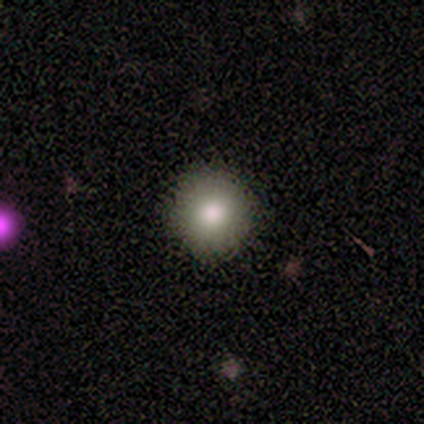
Smooth or featured?
  - smooth: 50% *
  - featured or disk: 25%
  - star or artifact: 25%
How rounded?
  - round: 100% *
  - in between: 0%
  - cigar-shaped: 0%
Merging?
  - none: 83% *
  - major disturbance: 17%
  - minor disturbance: 0%
  - merger: 0%